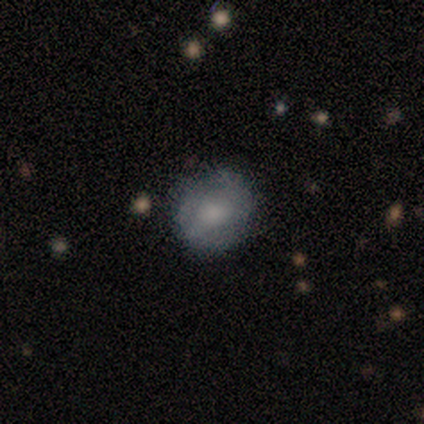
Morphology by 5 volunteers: smooth_or_featured: featured or disk (p=0.60) [alt: smooth p=0.40]
disk_edge_on: no (p=1.00)
bar: no (p=0.67) [alt: weak p=0.33]
has_spiral_arms: no (p=0.67) [alt: yes p=0.33]
bulge_size: moderate (p=1.00)
merging: none (p=0.80) [alt: minor disturbance p=0.20]